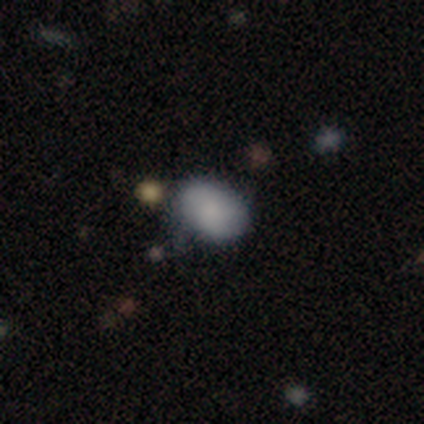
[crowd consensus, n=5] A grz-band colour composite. It shows a smooth galaxy with no disk features (60%) that is in between round and cigar-shaped (67%). Merging: none (60%).